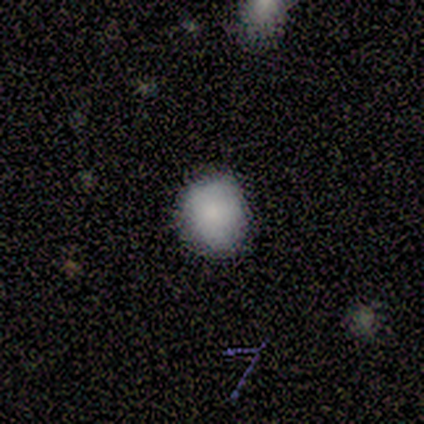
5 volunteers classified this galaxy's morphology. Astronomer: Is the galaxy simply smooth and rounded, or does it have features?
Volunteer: smooth — 80%.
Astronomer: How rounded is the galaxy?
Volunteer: round — 100%.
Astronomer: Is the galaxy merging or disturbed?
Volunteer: none — 100%.